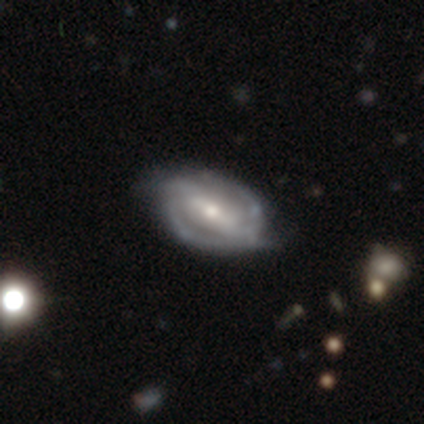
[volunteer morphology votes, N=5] Smooth or featured: featured or disk — 80% (star or artifact — 20%)
Edge-on disk: no — 75% (yes — 25%)
Bar: strong — 100%
Spiral arms: yes — 100%
Spiral winding: tight — 67% (medium — 33%)
Spiral arm count: 2 — 100%
Bulge size: small — 67% (moderate — 33%)
Merging: none — 75% (minor disturbance — 25%)